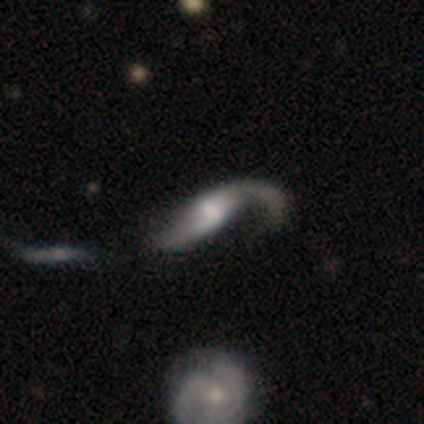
Smooth or featured?
  - featured or disk: 82% *
  - smooth: 18%
  - star or artifact: 0%
Edge-on disk?
  - no: 88% *
  - yes: 12%
Bar?
  - weak: 62% *
  - no: 31%
  - strong: 7%
Spiral arms?
  - yes: 83% *
  - no: 17%
Spiral winding?
  - loose: 79% *
  - medium: 12%
  - tight: 8%
Spiral arm count?
  - 2: 62% *
  - 1: 29%
  - can't tell: 8%
  - 3: 0%
  - 4: 0%
  - more than 4: 0%
Bulge size?
  - small: 34% *
  - large: 31%
  - moderate: 31%
  - none: 3%
  - dominant: 0%
Merging?
  - major disturbance: 40% *
  - none: 35%
  - minor disturbance: 18%
  - merger: 8%